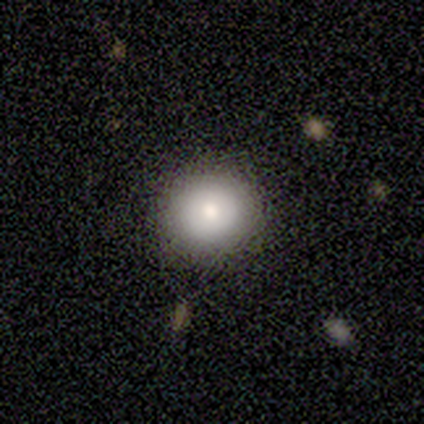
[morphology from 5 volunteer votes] smooth_or_featured: smooth (p=0.80) [alt: star or artifact p=0.20]
how_rounded: round (p=1.00)
merging: none (p=1.00)